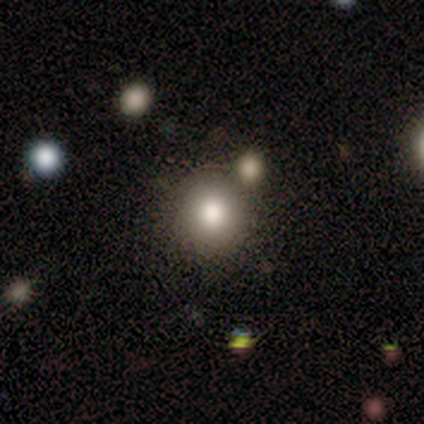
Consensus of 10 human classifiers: This is likely a smooth galaxy (70%). How rounded: clearly round (86%). Merging: clearly none (100%).